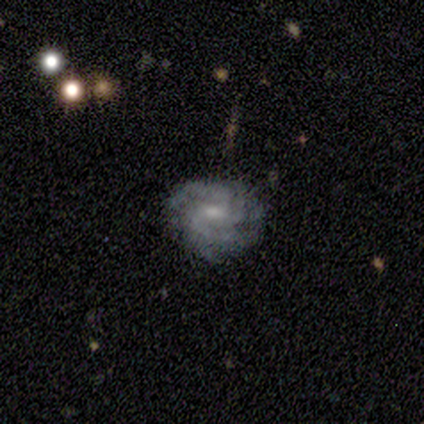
smooth-or-featured: featured or disk: 100% | smooth: 0% | star or artifact: 0%
  disk-edge-on: no: 100% | yes: 0%
    bar: no: 60% | weak: 40% | strong: 0%
    has-spiral-arms: yes: 100% | no: 0%
      spiral-winding: medium: 60% | tight: 40% | loose: 0%
      spiral-arm-count: 3: 40% | 4: 20% | more than 4: 20% | can't tell: 20% | 1: 0% | 2: 0%
    bulge-size: moderate: 60% | small: 40% | dominant: 0% | large: 0% | none: 0%
  merging: none: 100% | minor disturbance: 0% | major disturbance: 0% | merger: 0%